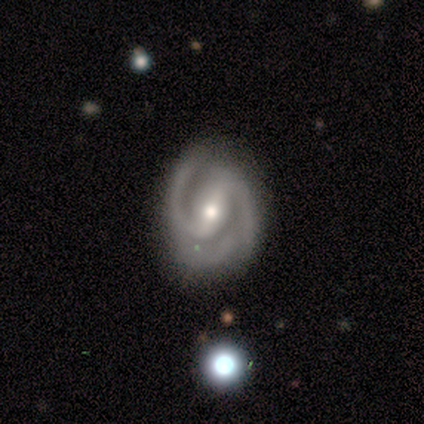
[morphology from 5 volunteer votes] Smooth or featured: featured or disk — 100%
Edge-on disk: no — 100%
Bar: strong — 80% (weak — 20%)
Spiral arms: yes — 100%
Spiral winding: medium — 80% (tight — 20%)
Spiral arm count: 2 — 80% (3 — 20%)
Bulge size: moderate — 80% (small — 20%)
Merging: none — 80% (major disturbance — 20%)